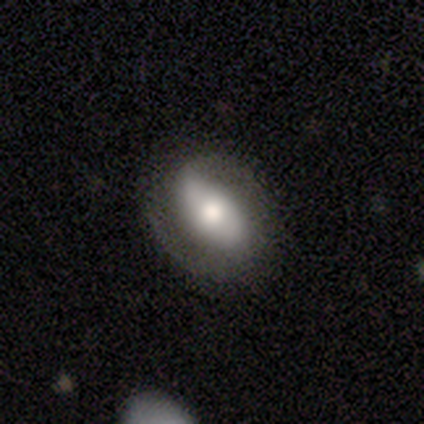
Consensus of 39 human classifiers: smooth_or_featured: featured or disk (p=0.56) [alt: smooth p=0.28]
disk_edge_on: no (p=1.00)
bar: strong (p=0.45) [tied with: no p=0.45]
has_spiral_arms: yes (p=0.73) [alt: no p=0.27]
spiral_winding: medium (p=0.44) [alt: tight p=0.38]
spiral_arm_count: 2 (p=0.94) [alt: can't tell p=0.06]
bulge_size: moderate (p=0.50) [alt: large p=0.36]
merging: none (p=0.67) [alt: minor disturbance p=0.27]